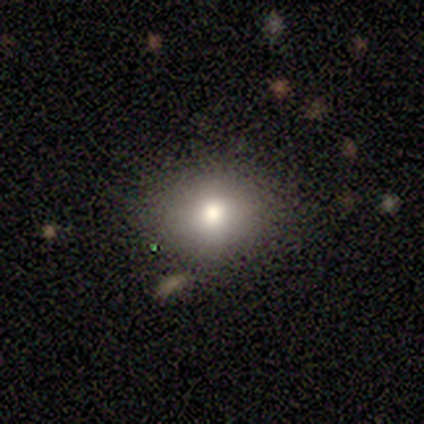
Smooth or featured: smooth — 100%
How rounded: round — 80% (in between — 20%)
Merging: none — 60% (minor disturbance — 20%)